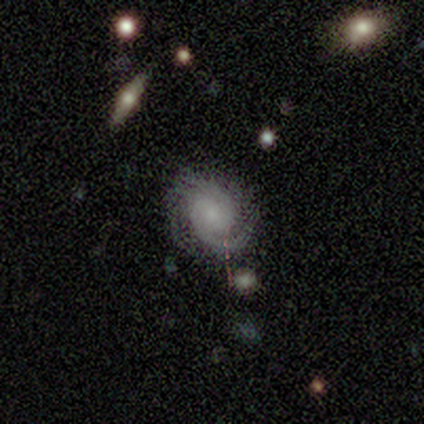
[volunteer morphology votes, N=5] Smooth or featured?
  - featured or disk: 80% *
  - star or artifact: 20%
  - smooth: 0%
Edge-on disk?
  - no: 100% *
  - yes: 0%
Bar?
  - weak: 75% *
  - no: 25%
  - strong: 0%
Spiral arms?
  - yes: 100% *
  - no: 0%
Spiral winding?
  - medium: 75% *
  - tight: 25%
  - loose: 0%
Spiral arm count?
  - 2: 75% *
  - 3: 25%
  - 1: 0%
  - 4: 0%
  - more than 4: 0%
  - can't tell: 0%
Bulge size?
  - large: 25% * (tied)
  - moderate: 25% * (tied)
  - small: 25% * (tied)
  - none: 25% * (tied)
  - dominant: 0%
Merging?
  - none: 100% *
  - minor disturbance: 0%
  - major disturbance: 0%
  - merger: 0%